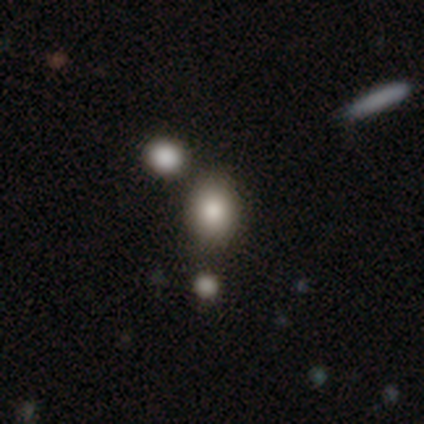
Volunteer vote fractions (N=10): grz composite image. It shows a smooth galaxy with no disk features (70%) that is in between round and cigar-shaped (71%). Merging: none (75%).